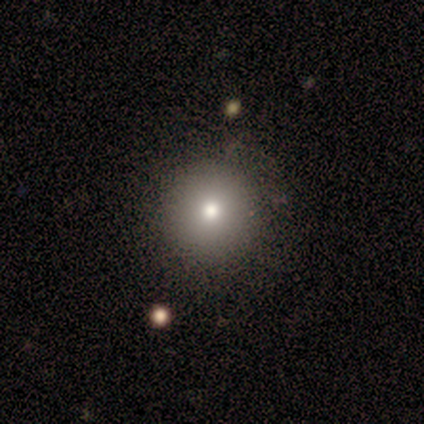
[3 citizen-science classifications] Smooth or featured? 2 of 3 (67%) said smooth. How rounded? 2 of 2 (100%) said round. Merging? 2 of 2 (100%) said none.